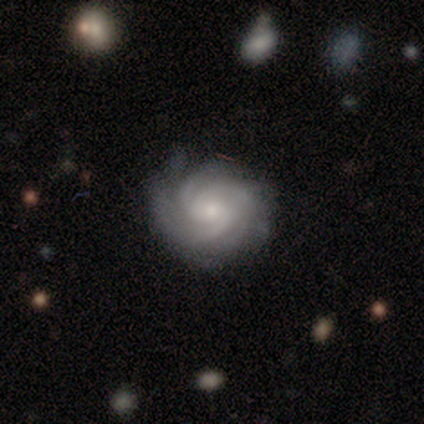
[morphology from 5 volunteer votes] Volunteers were most divided on "bulge size": small: 60%, moderate: 40%, dominant: 0%, large: 0%, none: 0%. Remaining: smooth or featured — featured or disk (100%); edge-on disk — no (100%); spiral arms — yes (100%); spiral winding — tight (100%); merging — none (100%); bar — no (80%); spiral arm count — can't tell (40%).